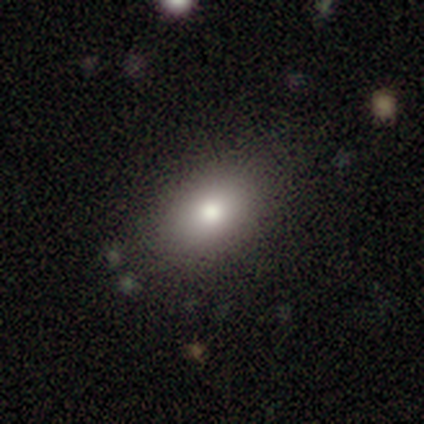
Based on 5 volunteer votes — Volunteers were most divided on "smooth or featured": smooth: 80%, featured or disk: 20%, star or artifact: 0%. More confident: how rounded — in between (100%); merging — none (80%).